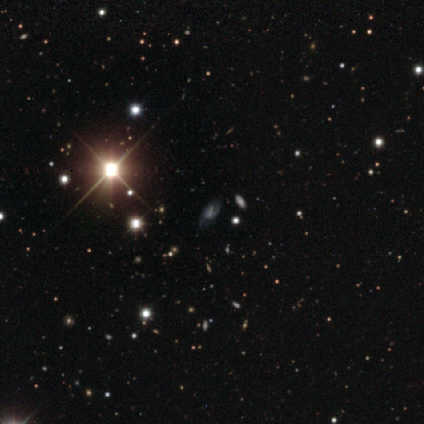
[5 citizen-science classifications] Smooth or featured: featured or disk — 40% (tied with star or artifact — 40%)
Edge-on disk: yes — 50% (tied with no — 50%)
Edge-on bulge: rounded — 100%
Merging: none — 67% (major disturbance — 33%)